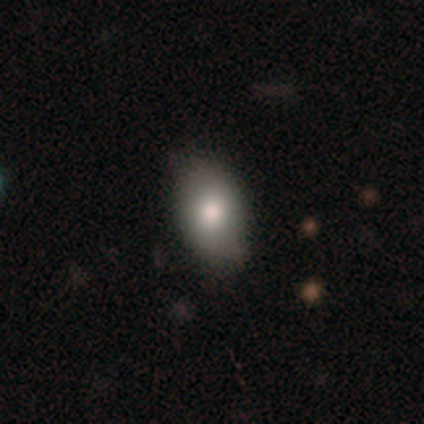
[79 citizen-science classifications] A smooth galaxy with no disk features (80%) that is in between round and cigar-shaped (86%).

Vote fractions:
- Smooth or featured? smooth: 80% / featured or disk: 14% / star or artifact: 6%
- How rounded? in between: 86% / round: 14% / cigar-shaped: 0%
- Merging? none: 41% / minor disturbance: 7% / merger: 4% / major disturbance: 1%